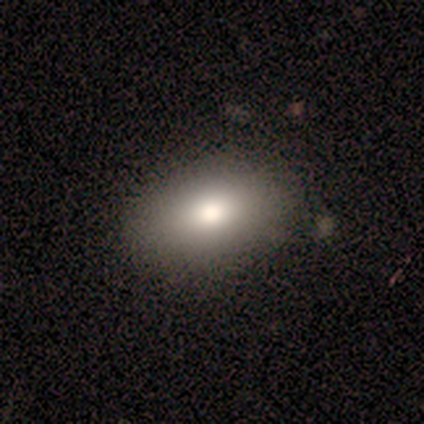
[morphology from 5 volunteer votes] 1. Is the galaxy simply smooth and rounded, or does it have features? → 100% smooth, 0% featured or disk, 0% star or artifact.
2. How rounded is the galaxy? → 80% in between, 20% round, 0% cigar-shaped.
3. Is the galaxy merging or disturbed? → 100% none, 0% minor disturbance, 0% major disturbance, 0% merger.